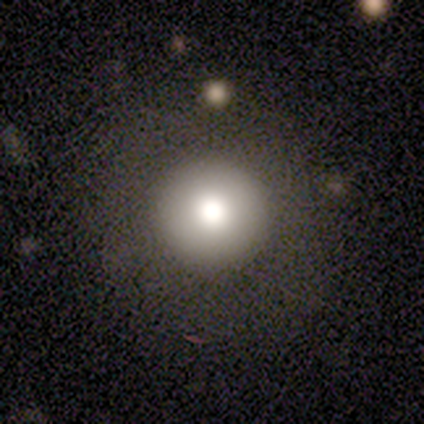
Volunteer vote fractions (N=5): Smooth or featured? smooth (60%)
How rounded? round (100%)
Merging? none (80%)